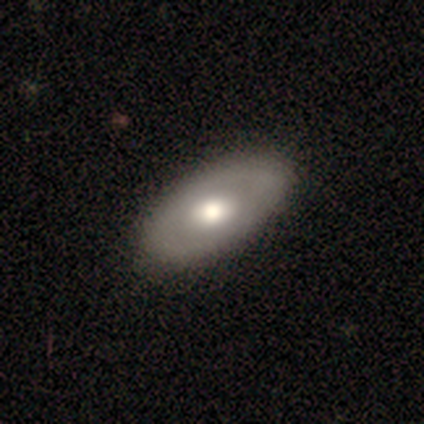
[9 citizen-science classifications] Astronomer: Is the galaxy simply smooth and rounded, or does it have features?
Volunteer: featured or disk — 56% (runner-up: smooth, 44%).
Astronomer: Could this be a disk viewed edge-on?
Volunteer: no — 100%.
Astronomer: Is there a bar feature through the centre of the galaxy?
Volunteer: no — 80%.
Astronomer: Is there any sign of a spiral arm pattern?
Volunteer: no — 60% (runner-up: yes, 40%).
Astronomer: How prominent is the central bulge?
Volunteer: moderate — 60% (runner-up: large, 40%).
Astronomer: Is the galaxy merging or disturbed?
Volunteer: none — 89%.